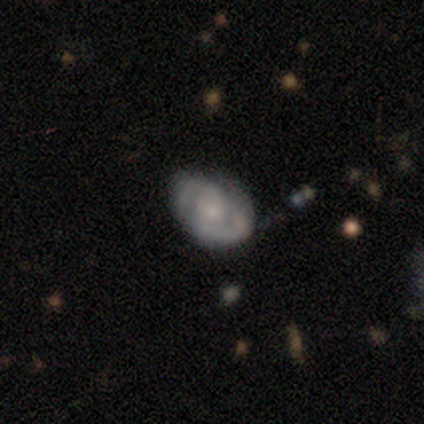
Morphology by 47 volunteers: smooth_or_featured: featured or disk (p=0.68) [alt: smooth p=0.21]
disk_edge_on: no (p=1.00)
bar: no (p=0.72) [alt: weak p=0.25]
has_spiral_arms: yes (p=0.94) [alt: no p=0.06]
spiral_winding: tight (p=0.50) [alt: medium p=0.43]
spiral_arm_count: 2 (p=0.93) [alt: 4 p=0.03]
bulge_size: small (p=0.56) [alt: moderate p=0.22]
merging: none (p=0.64) [alt: minor disturbance p=0.31]